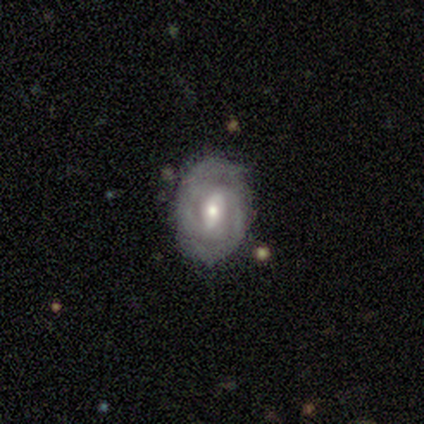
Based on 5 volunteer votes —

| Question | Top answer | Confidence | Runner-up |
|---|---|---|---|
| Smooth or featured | featured or disk | 60% | smooth (40%) |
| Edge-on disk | no | 100% | — |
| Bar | weak | 100% | — |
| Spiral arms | yes | 100% | — |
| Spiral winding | tight | 67% | medium (33%) |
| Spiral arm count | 2 | 67% | can't tell (33%) |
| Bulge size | moderate | 67% | small (33%) |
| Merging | none | 80% | major disturbance (20%) |